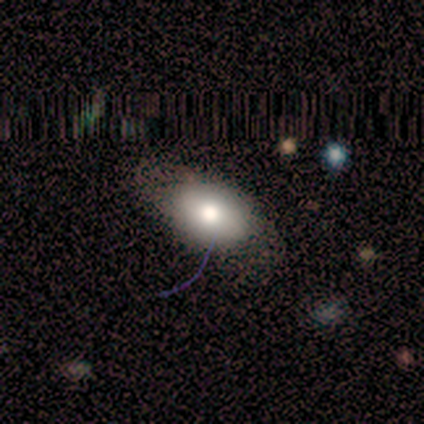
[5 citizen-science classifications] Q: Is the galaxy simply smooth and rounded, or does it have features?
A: featured or disk — 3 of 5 (60%).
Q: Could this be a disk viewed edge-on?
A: yes — 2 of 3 (67%).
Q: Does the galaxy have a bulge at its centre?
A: rounded — 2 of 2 (100%).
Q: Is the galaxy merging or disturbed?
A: none — 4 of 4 (100%).